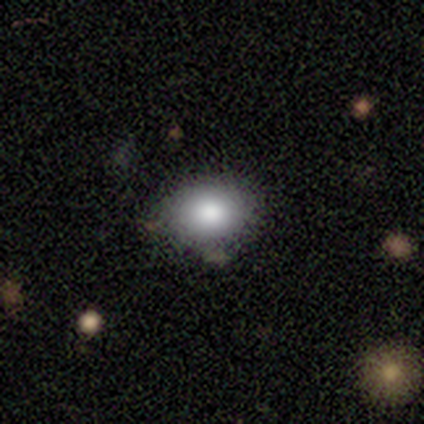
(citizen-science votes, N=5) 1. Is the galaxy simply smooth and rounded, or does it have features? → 100% smooth, 0% featured or disk, 0% star or artifact.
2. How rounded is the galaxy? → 60% in between, 40% round, 0% cigar-shaped.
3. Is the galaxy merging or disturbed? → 100% none, 0% minor disturbance, 0% major disturbance, 0% merger.